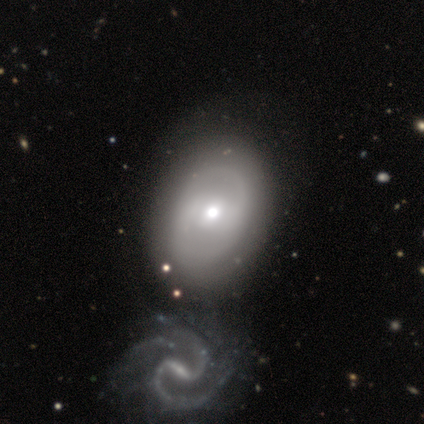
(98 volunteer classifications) Volunteers were most divided on "spiral arms": yes: 51%, no: 49%. Remaining: edge-on disk — no (100%); spiral arm count — 2 (91%); bulge size — moderate (72%); smooth or featured — featured or disk (68%); merging — none (58%); spiral winding — medium (56%); bar — no (43%).